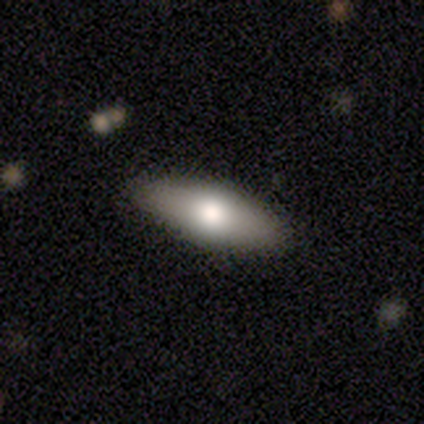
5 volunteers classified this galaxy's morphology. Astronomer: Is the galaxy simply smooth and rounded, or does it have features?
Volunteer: smooth — 60% (runner-up: featured or disk, 40%).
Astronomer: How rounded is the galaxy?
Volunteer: in between — 67%.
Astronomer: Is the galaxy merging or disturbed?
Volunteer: none — 100%.